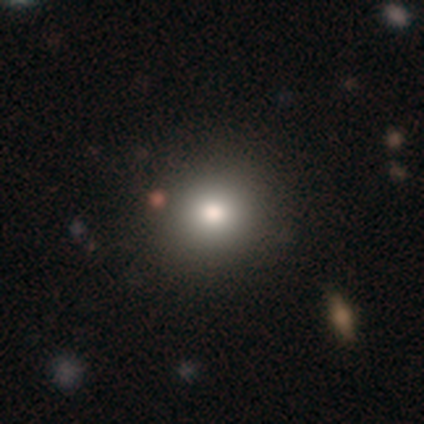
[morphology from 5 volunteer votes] smooth_or_featured: smooth (p=0.80) [alt: featured or disk p=0.20]
how_rounded: round (p=1.00)
merging: none (p=1.00)